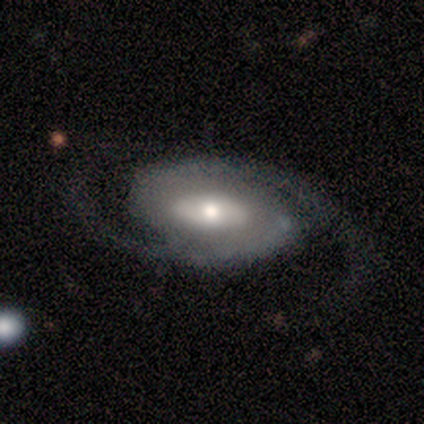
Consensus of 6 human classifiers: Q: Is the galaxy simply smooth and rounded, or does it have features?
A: featured or disk — 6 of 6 (100%).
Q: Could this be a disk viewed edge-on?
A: no — 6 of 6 (100%).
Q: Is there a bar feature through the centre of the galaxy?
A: no — 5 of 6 (83%).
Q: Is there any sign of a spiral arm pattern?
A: yes — 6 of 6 (100%).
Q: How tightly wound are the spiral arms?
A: tight — 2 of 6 (33%, tied with medium and loose).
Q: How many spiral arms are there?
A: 2 — 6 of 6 (100%).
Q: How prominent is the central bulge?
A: moderate — 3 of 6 (50%).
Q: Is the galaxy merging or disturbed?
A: none — 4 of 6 (67%).